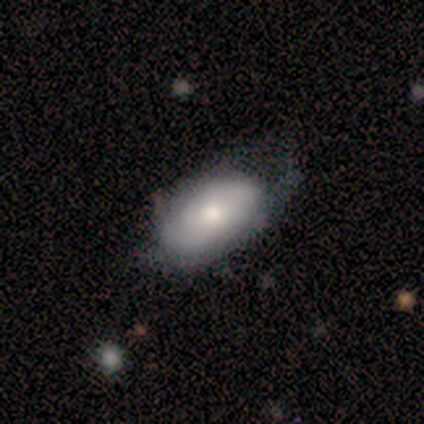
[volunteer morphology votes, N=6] smooth 83%, featured or disk 17%, star or artifact 0%. Down the decision tree: how rounded — in between (80%); merging — major disturbance (50%).